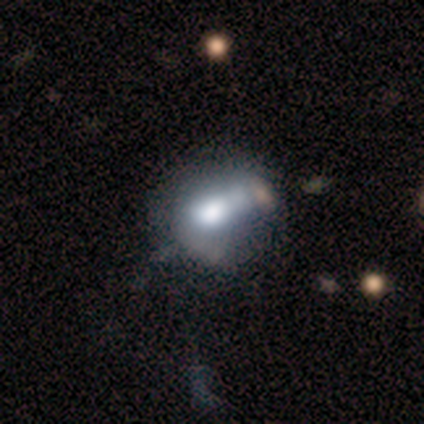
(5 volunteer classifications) A smooth galaxy with no disk features (60%) that is round (67%).

Vote fractions:
- Smooth or featured? smooth: 60% / featured or disk: 20% / star or artifact: 20%
- How rounded? round: 67% / in between: 33% / cigar-shaped: 0%
- Merging? none: 50% (tied) / major disturbance: 50% (tied) / minor disturbance: 0% / merger: 0%